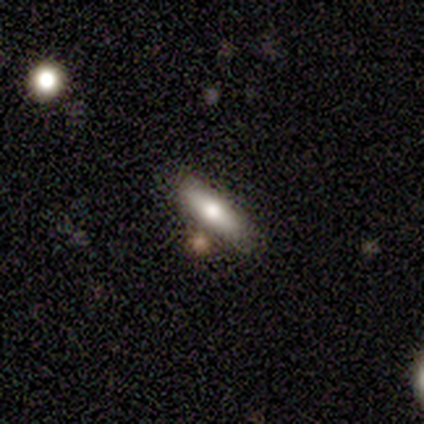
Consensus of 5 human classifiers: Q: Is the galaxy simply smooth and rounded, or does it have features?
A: smooth — 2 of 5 (40%, tied with featured or disk).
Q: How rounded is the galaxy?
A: in between — 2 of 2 (100%).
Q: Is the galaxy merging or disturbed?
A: none — 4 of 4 (100%).